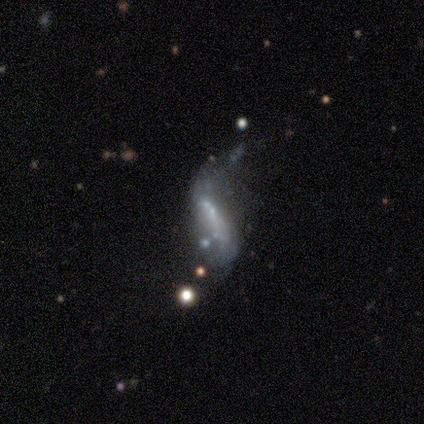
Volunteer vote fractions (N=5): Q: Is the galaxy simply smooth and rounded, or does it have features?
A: featured or disk — 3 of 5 (60%).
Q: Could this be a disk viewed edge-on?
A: no — 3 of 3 (100%).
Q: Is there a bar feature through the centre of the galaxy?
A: weak — 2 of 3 (67%).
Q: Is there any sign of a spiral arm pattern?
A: yes — 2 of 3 (67%).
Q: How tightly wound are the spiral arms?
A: loose — 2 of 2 (100%).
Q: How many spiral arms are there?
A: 2 — 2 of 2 (100%).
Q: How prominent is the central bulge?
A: none — 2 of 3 (67%).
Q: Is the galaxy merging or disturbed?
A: merger — 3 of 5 (60%).